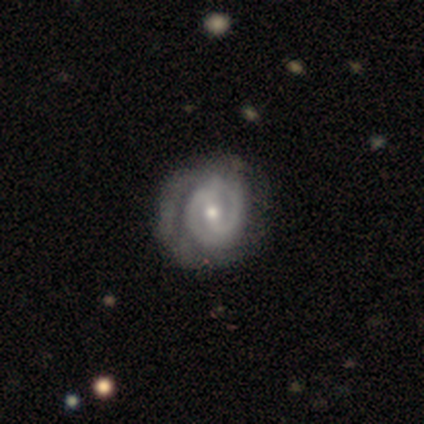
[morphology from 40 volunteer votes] Smooth or featured: featured or disk — 88% (smooth — 10%)
Edge-on disk: no — 97% (yes — 3%)
Bar: weak — 44% (no — 32%)
Spiral arms: yes — 85% (no — 15%)
Spiral winding: tight — 83% (medium — 10%)
Spiral arm count: 2 — 69% (can't tell — 17%)
Bulge size: small — 50% (moderate — 44%)
Merging: none — 38% (major disturbance — 13%)